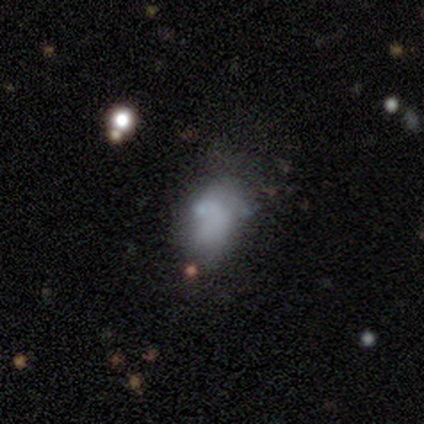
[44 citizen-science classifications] Smooth or featured?
  - smooth: 52% *
  - featured or disk: 41%
  - star or artifact: 7%
How rounded?
  - in between: 100% *
  - round: 0%
  - cigar-shaped: 0%
Merging?
  - minor disturbance: 34% *
  - none: 32%
  - major disturbance: 27%
  - merger: 7%